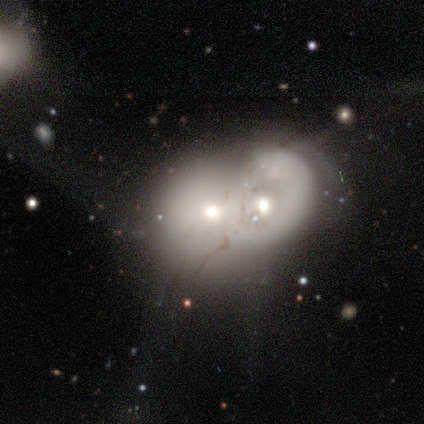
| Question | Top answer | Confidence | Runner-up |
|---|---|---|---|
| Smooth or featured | smooth | 60% | featured or disk (40%) |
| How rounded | round | 100% | — |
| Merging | merger | 100% | — |